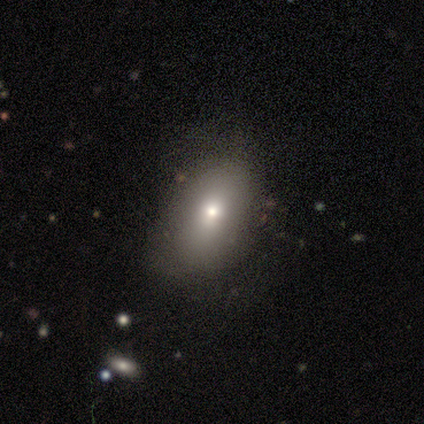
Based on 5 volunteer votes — Smooth or featured? smooth (60%)
How rounded? in between (100%)
Merging? none (80%)